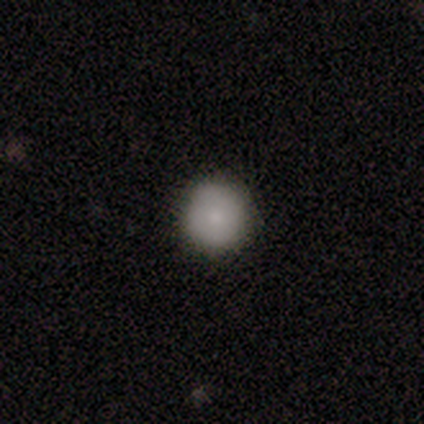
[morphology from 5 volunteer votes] smooth_or_featured: smooth (p=0.80) [alt: featured or disk p=0.20]
how_rounded: round (p=1.00)
merging: none (p=1.00)